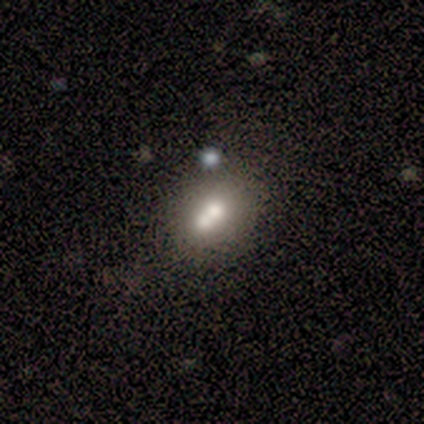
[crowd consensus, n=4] Volunteers were most divided on "merging": none: 50%, minor disturbance: 25%, merger: 25%, major disturbance: 0%. More confident: edge-on disk — no (100%); bar — no (100%); spiral arms — no (100%); smooth or featured — featured or disk (75%); bulge size — moderate (67%).